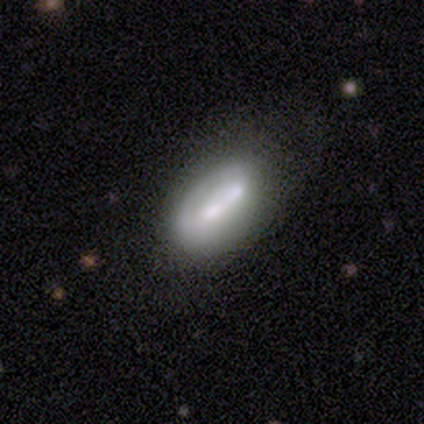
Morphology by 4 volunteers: smooth_or_featured: featured or disk (p=0.75) [alt: smooth p=0.25]
disk_edge_on: yes (p=0.67) [alt: no p=0.33]
edge_on_bulge: boxy (p=0.50) [tied with: none p=0.50]
merging: merger (p=0.75) [alt: minor disturbance p=0.25]